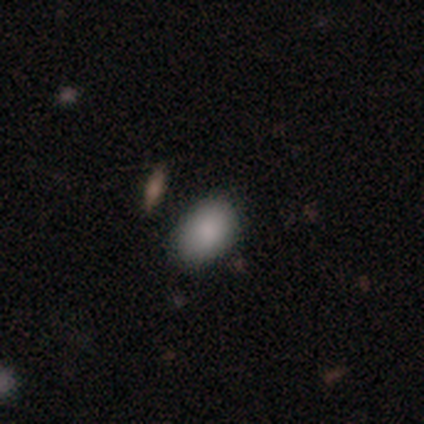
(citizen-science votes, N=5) This is clearly a smooth galaxy (100%). How rounded: clearly in between (100%). Merging: clearly none (100%).